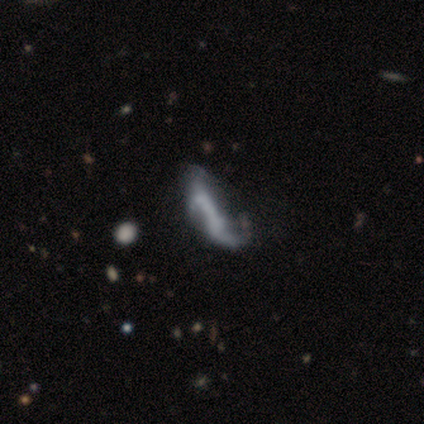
Smooth or featured?
  - featured or disk: 65% *
  - smooth: 27%
  - star or artifact: 8%
Edge-on disk?
  - no: 79% *
  - yes: 21%
Bar?
  - no: 53% *
  - strong: 32%
  - weak: 16%
Spiral arms?
  - yes: 53% *
  - no: 47%
Spiral winding?
  - loose: 70% *
  - medium: 20%
  - tight: 10%
Spiral arm count?
  - 2: 50% *
  - can't tell: 40%
  - 1: 10%
  - 3: 0%
  - 4: 0%
  - more than 4: 0%
Bulge size?
  - none: 79% *
  - small: 16%
  - dominant: 5%
  - large: 0%
  - moderate: 0%
Merging?
  - major disturbance: 32% *
  - merger: 18%
  - none: 15%
  - minor disturbance: 15%